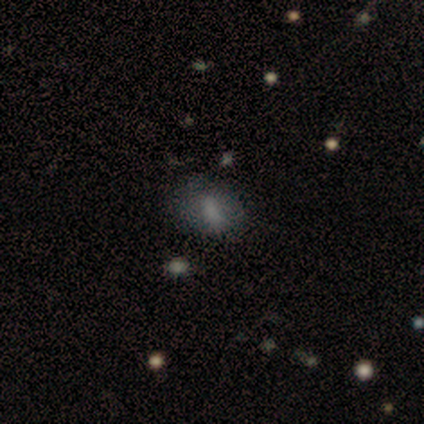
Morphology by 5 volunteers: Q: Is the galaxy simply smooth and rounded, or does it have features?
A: smooth — 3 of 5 (60%).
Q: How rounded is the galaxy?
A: in between — 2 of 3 (67%).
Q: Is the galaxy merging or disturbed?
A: none — 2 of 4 (50%).